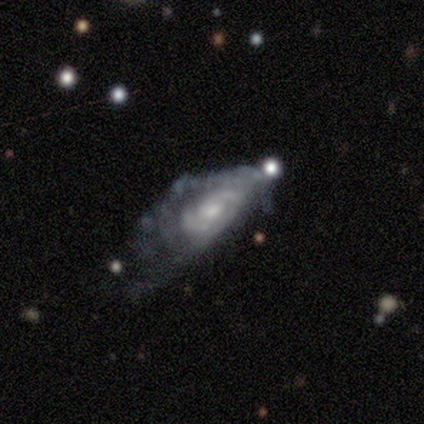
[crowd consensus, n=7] Q: Smooth or featured?
A: featured or disk (71%); runner-up: smooth (14%)
Q: Edge-on disk?
A: no (80%); runner-up: yes (20%)
Q: Bar?
A: no (75%); runner-up: weak (25%)
Q: Spiral arms?
A: yes (75%); runner-up: no (25%)
Q: Spiral winding?
A: tight (67%); runner-up: loose (33%)
Q: Spiral arm count?
A: can't tell (67%); runner-up: 2 (33%)
Q: Bulge size?
A: moderate (50%); tied with: small (50%)
Q: Merging?
A: major disturbance (83%); runner-up: minor disturbance (17%)